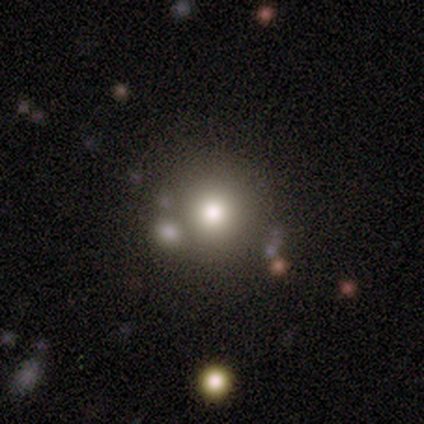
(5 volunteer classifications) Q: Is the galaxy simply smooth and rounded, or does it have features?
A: smooth — 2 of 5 (40%, tied with star or artifact).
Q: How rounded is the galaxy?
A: round — 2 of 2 (100%).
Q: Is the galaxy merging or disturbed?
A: none — 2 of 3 (67%).